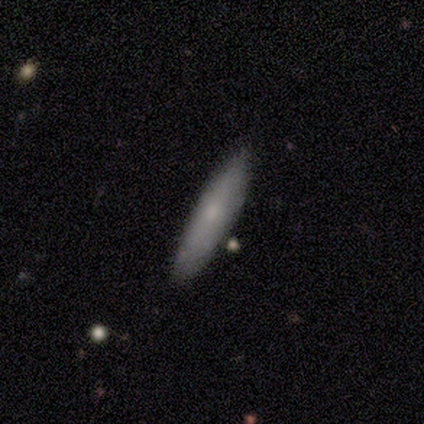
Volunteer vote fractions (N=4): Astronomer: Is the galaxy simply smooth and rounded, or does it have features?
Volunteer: smooth — 75%.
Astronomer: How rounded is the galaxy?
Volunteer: cigar-shaped — 100%.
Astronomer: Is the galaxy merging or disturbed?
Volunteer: none — 100%.